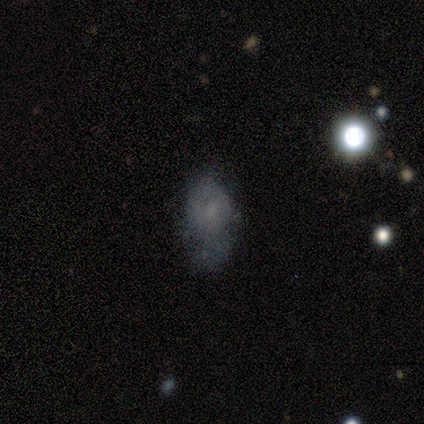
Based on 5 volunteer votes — This is likely a smooth galaxy (60%). How rounded: clearly in between (100%). Merging: likely none (67%).